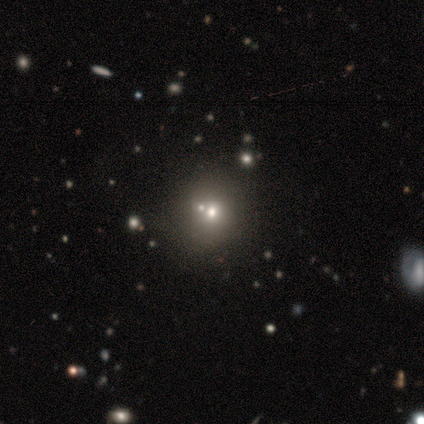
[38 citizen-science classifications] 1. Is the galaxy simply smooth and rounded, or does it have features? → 68% smooth, 18% featured or disk, 13% star or artifact.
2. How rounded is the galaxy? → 85% round, 15% in between, 0% cigar-shaped.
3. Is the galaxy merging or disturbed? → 61% none, 27% merger, 9% minor disturbance, 3% major disturbance.